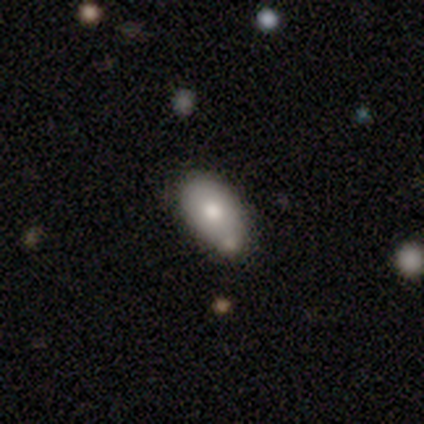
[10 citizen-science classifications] A smooth galaxy with no disk features (70%) that is in between round and cigar-shaped (86%).

Vote fractions:
- Smooth or featured? smooth: 70% / featured or disk: 30% / star or artifact: 0%
- How rounded? in between: 86% / round: 14% / cigar-shaped: 0%
- Merging? minor disturbance: 50% / none: 30% / merger: 20% / major disturbance: 0%